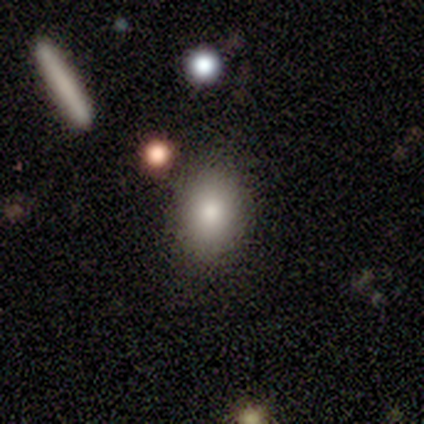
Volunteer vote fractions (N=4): Overall: smooth (75%). How rounded: round (67%; in between 33%). Merging: none (100%).